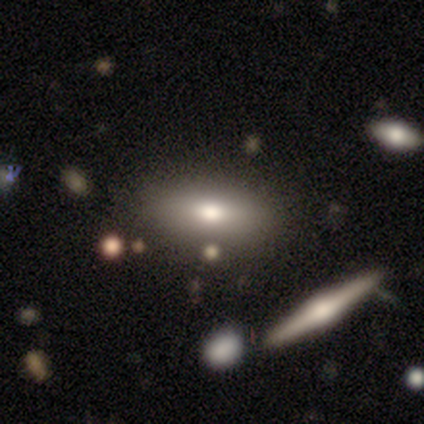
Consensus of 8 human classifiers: A smooth galaxy with no disk features (75%) that is in between round and cigar-shaped (100%). Merging: none (62%).